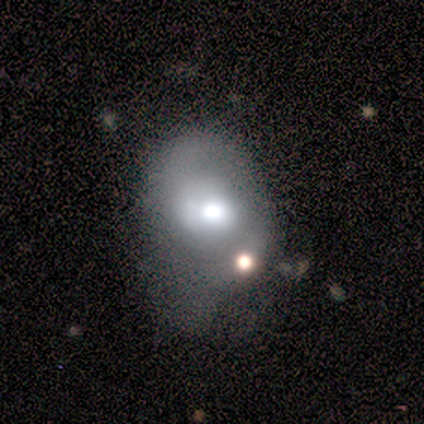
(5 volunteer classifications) Smooth or featured? smooth (80%)
How rounded? round (50%, tied with in between)
Merging? minor disturbance (40%)